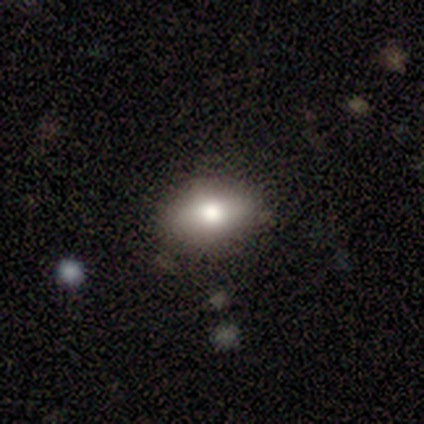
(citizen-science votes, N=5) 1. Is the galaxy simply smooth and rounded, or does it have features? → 40% smooth (tied), 40% featured or disk (tied), 20% star or artifact.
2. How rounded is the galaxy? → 100% in between, 0% round, 0% cigar-shaped.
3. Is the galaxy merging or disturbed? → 100% none, 0% minor disturbance, 0% major disturbance, 0% merger.